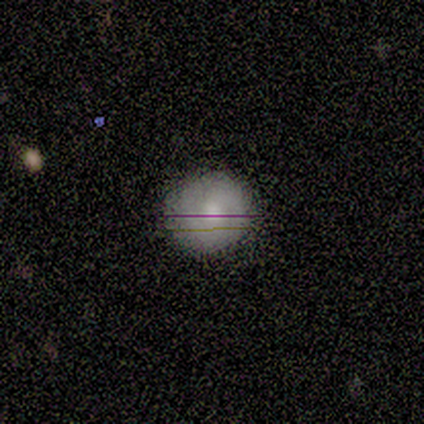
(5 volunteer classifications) smooth_or_featured: featured or disk (p=0.60) [alt: smooth p=0.20]
disk_edge_on: no (p=1.00)
bar: no (p=0.67) [alt: weak p=0.33]
has_spiral_arms: yes (p=1.00)
spiral_winding: tight (p=1.00)
spiral_arm_count: can't tell (p=0.67) [alt: 2 p=0.33]
bulge_size: moderate (p=0.67) [alt: small p=0.33]
merging: none (p=0.75) [alt: major disturbance p=0.25]